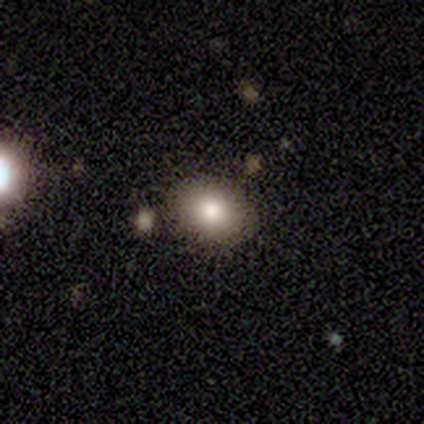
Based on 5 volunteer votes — Smooth or featured? 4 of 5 (80%) said smooth. How rounded? 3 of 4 (75%) said round. Merging? 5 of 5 (100%) said none.